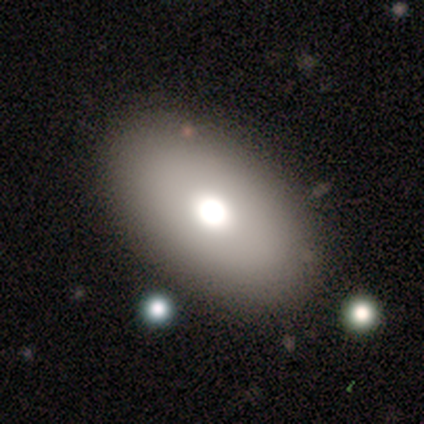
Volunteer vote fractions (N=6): This appears to be a smooth galaxy with no disk features (33%, tied with featured or disk and star or artifact) that is in between round and cigar-shaped (100%). Merging: none (75%).